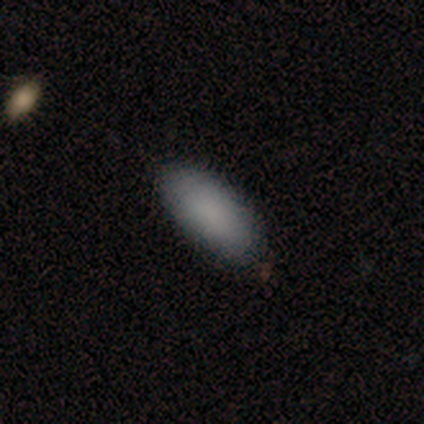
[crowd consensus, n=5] A smooth galaxy with no disk features (100%) that is in between round and cigar-shaped (100%).

Vote fractions:
- Smooth or featured? smooth: 100% / featured or disk: 0% / star or artifact: 0%
- How rounded? in between: 100% / round: 0% / cigar-shaped: 0%
- Merging? none: 100% / minor disturbance: 0% / major disturbance: 0% / merger: 0%